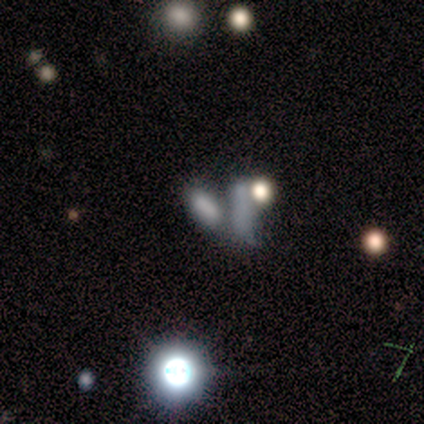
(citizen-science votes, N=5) Smooth or featured?
  - smooth: 80% *
  - star or artifact: 20%
  - featured or disk: 0%
How rounded?
  - in between: 75% *
  - cigar-shaped: 25%
  - round: 0%
Merging?
  - merger: 75% *
  - major disturbance: 25%
  - none: 0%
  - minor disturbance: 0%